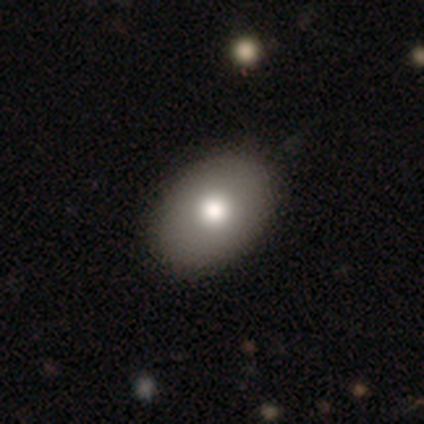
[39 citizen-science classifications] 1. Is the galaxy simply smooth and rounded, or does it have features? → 85% smooth, 10% featured or disk, 5% star or artifact.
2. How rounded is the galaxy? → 88% in between, 12% round, 0% cigar-shaped.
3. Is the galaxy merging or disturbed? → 70% none, 3% minor disturbance, 3% major disturbance, 0% merger.